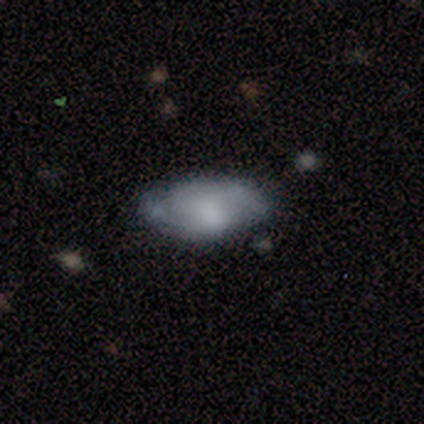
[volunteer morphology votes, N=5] smooth 80%, star or artifact 20%, featured or disk 0%. Down the decision tree: how rounded — in between (100%); merging — none (50%, tied with minor disturbance).